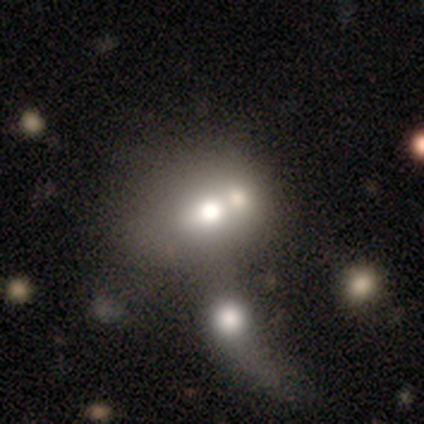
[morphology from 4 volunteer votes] type=smooth (75%); roundness=round (67%); merging=merger (75%).